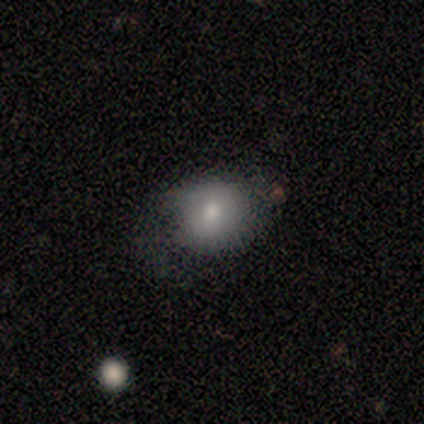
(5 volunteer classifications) A smooth galaxy with no disk features (100%) that is round (60%). Merging: none (40%, tied with minor disturbance).